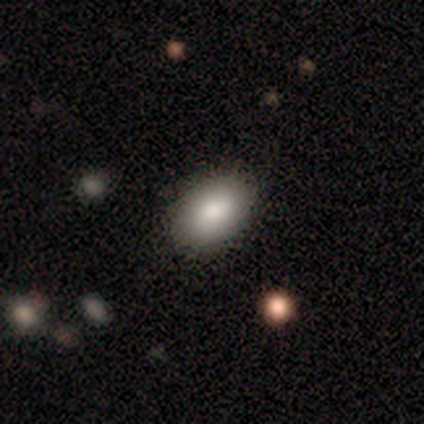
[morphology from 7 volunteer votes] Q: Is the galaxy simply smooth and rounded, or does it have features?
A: smooth — 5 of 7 (71%).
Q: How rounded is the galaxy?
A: in between — 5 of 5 (100%).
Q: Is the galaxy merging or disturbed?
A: none — 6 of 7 (86%).